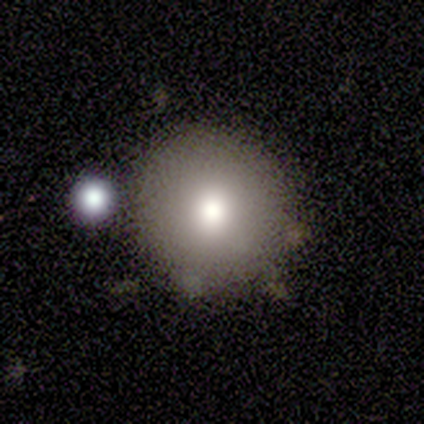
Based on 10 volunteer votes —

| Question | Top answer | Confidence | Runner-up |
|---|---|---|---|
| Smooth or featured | smooth | 70% | featured or disk (20%) |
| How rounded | round | 100% | — |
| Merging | none | 100% | — |